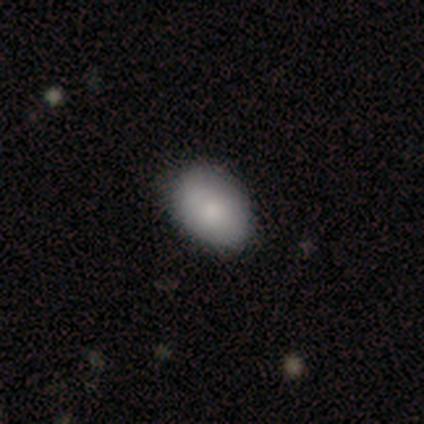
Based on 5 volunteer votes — A smooth galaxy with no disk features (80%) that is in between round and cigar-shaped (75%).

Vote fractions:
- Smooth or featured? smooth: 80% / star or artifact: 20% / featured or disk: 0%
- How rounded? in between: 75% / round: 25% / cigar-shaped: 0%
- Merging? none: 75% / minor disturbance: 25% / major disturbance: 0% / merger: 0%